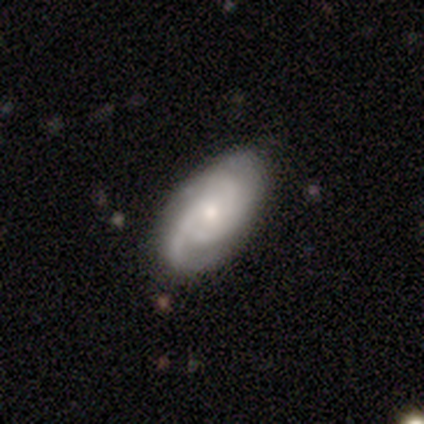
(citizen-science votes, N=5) Smooth or featured: featured or disk — 80% (smooth — 20%)
Edge-on disk: no — 100%
Bar: no — 100%
Spiral arms: yes — 100%
Spiral winding: medium — 50% (tight — 25%)
Spiral arm count: 1 — 25% (tied with 2 — 25%; 3 — 25%; more than 4 — 25%)
Bulge size: moderate — 75% (small — 25%)
Merging: none — 100%